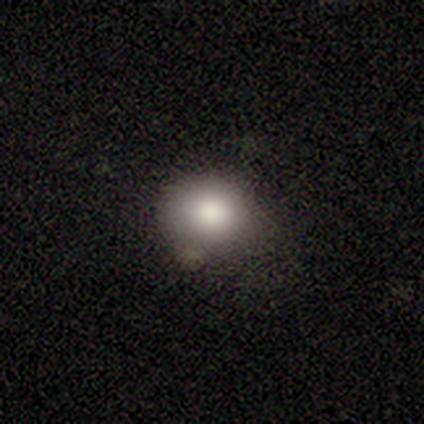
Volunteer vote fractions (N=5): Smooth or featured? smooth (100%)
How rounded? round (80%)
Merging? none (60%)